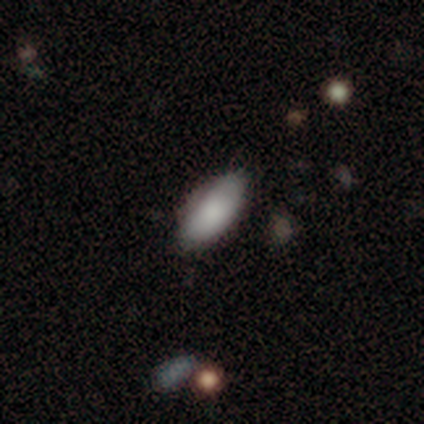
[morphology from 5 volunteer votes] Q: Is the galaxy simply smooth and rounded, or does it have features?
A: smooth — 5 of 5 (100%).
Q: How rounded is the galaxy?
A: in between — 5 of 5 (100%).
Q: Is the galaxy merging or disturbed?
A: none — 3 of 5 (60%).